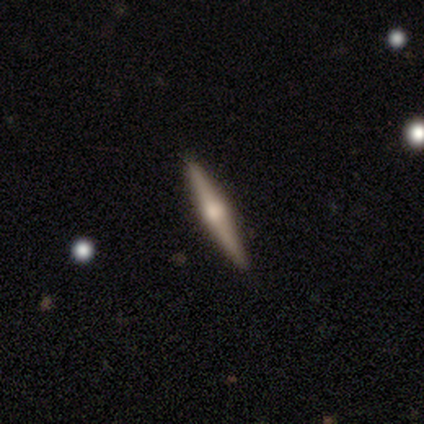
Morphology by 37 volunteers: This appears to be a featured or disk galaxy (65%) viewed edge-on (96%) with a rounded central bulge (96%). Merging: none (94%).